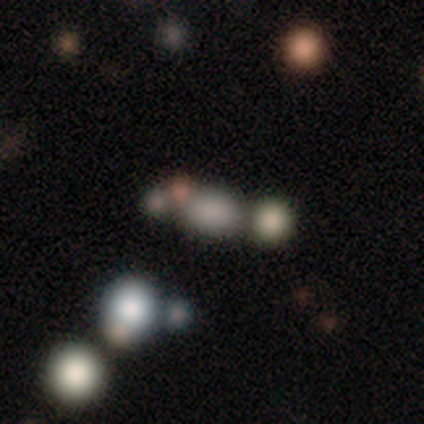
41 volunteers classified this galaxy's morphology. Smooth or featured: smooth — 59% (star or artifact — 27%)
How rounded: in between — 71% (round — 29%)
Merging: none — 60% (merger — 40%)